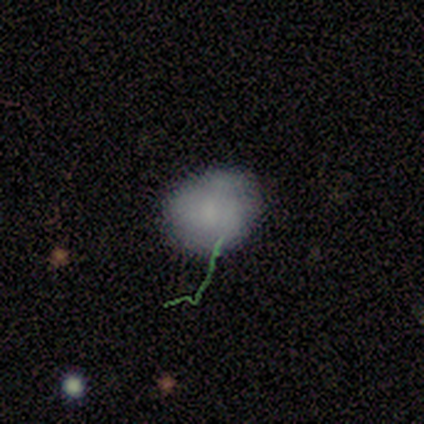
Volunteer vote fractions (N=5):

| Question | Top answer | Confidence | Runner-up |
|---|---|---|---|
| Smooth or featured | smooth | 60% | featured or disk (40%) |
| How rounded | in between | 67% | round (33%) |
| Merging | none | 100% | — |